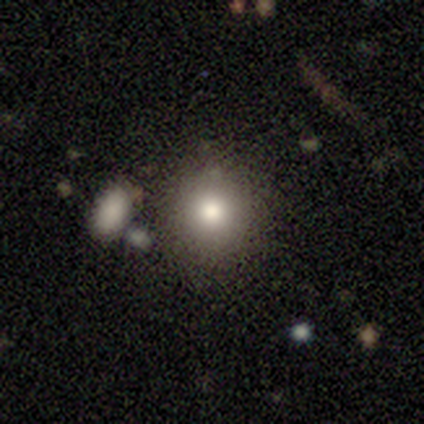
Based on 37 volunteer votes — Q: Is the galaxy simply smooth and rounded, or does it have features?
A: smooth — 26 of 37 (70%).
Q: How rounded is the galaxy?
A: round — 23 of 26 (88%).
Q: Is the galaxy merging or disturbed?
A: none — 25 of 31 (81%).